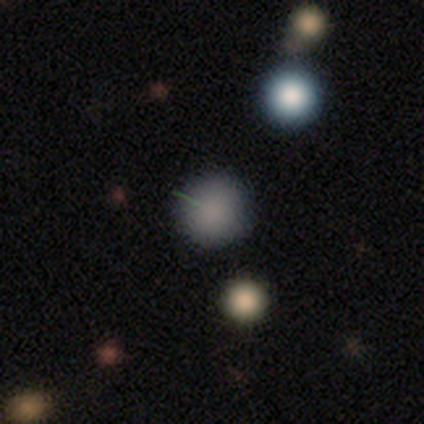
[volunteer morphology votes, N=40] This appears to be a smooth galaxy with no disk features (72%) that is round (100%). Merging: none (91%).